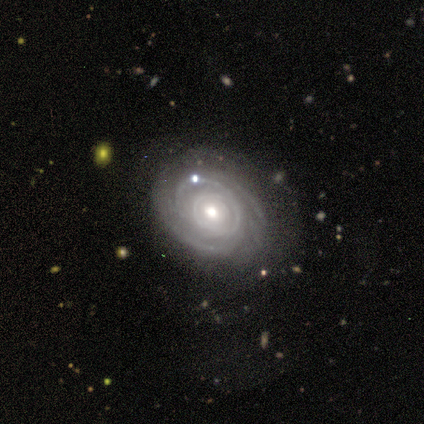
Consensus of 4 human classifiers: Smooth or featured? featured or disk (100%)
Edge-on disk? no (100%)
Bar? no (100%)
Spiral arms? yes (75%)
Spiral winding? tight (67%)
Spiral arm count? 4 (67%)
Bulge size? small (75%)
Merging? minor disturbance (75%)